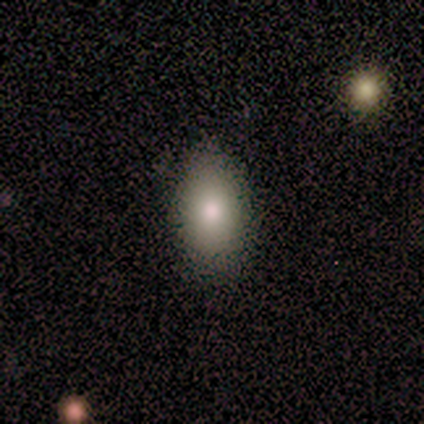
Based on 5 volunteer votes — A smooth galaxy with no disk features (80%) that is in between round and cigar-shaped (100%). Merging: none (100%).